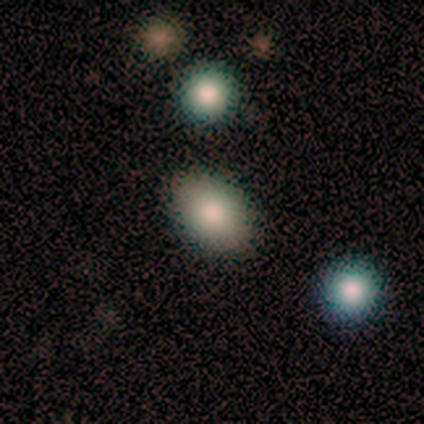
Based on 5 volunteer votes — smooth-or-featured: smooth: 100% | featured or disk: 0% | star or artifact: 0%
  how-rounded: in between: 100% | round: 0% | cigar-shaped: 0%
  merging: none: 100% | minor disturbance: 0% | major disturbance: 0% | merger: 0%